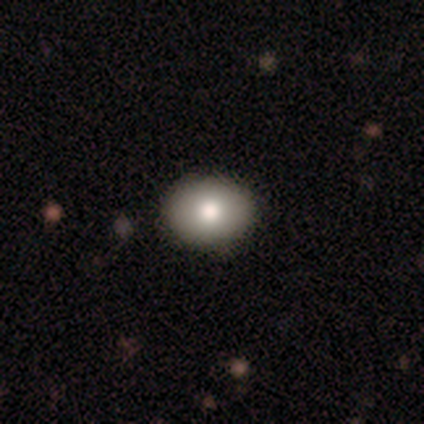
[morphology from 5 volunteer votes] A smooth galaxy with no disk features (80%) that is round (75%).

Vote fractions:
- Smooth or featured? smooth: 80% / featured or disk: 20% / star or artifact: 0%
- How rounded? round: 75% / in between: 25% / cigar-shaped: 0%
- Merging? none: 100% / minor disturbance: 0% / major disturbance: 0% / merger: 0%